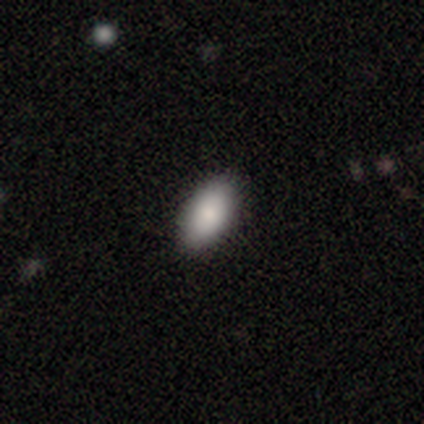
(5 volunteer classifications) A smooth galaxy with no disk features (100%) that is in between round and cigar-shaped (100%).

Vote fractions:
- Smooth or featured? smooth: 100% / featured or disk: 0% / star or artifact: 0%
- How rounded? in between: 100% / round: 0% / cigar-shaped: 0%
- Merging? none: 80% / major disturbance: 20% / minor disturbance: 0% / merger: 0%